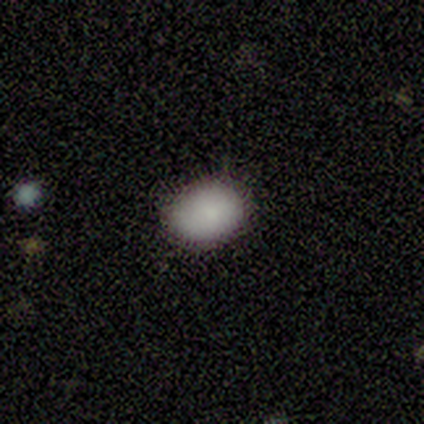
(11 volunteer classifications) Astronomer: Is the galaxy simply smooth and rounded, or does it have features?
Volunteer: smooth — 100%.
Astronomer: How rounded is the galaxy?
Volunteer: in between — 100%.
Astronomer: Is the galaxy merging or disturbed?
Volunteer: none — 91%.